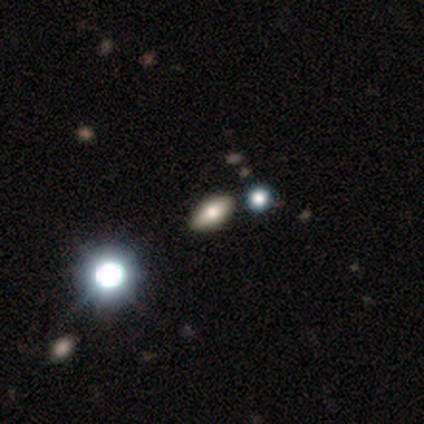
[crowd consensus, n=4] Volunteers were most divided on "how rounded": in between: 75%, round: 25%, cigar-shaped: 0%. More confident: smooth or featured — smooth (100%); merging — none (75%).